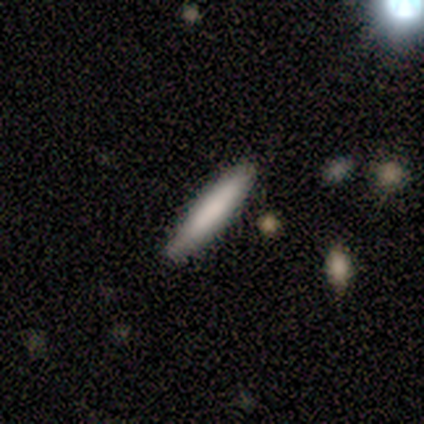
smooth-or-featured: smooth: 74% | featured or disk: 18% | star or artifact: 8%
  how-rounded: cigar-shaped: 86% | in between: 14% | round: 0%
  merging: none: 89% | minor disturbance: 11% | major disturbance: 0% | merger: 0%